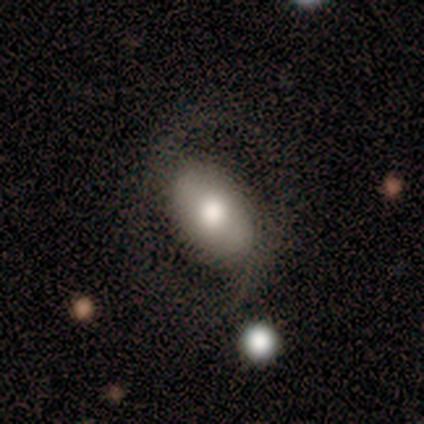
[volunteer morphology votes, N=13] This appears to be a smooth galaxy with no disk features (54%) that is in between round and cigar-shaped (100%). Merging: none (75%).